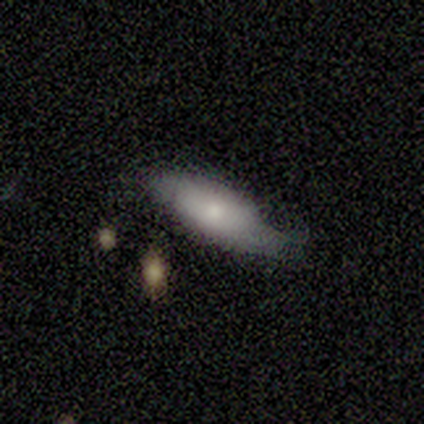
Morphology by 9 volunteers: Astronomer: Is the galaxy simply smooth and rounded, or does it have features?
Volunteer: featured or disk — 56% (runner-up: smooth, 33%).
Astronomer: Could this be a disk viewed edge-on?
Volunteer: yes — 60% (runner-up: no, 40%).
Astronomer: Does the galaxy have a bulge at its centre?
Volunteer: boxy — 67%.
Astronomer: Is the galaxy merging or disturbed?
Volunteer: none — 50%.